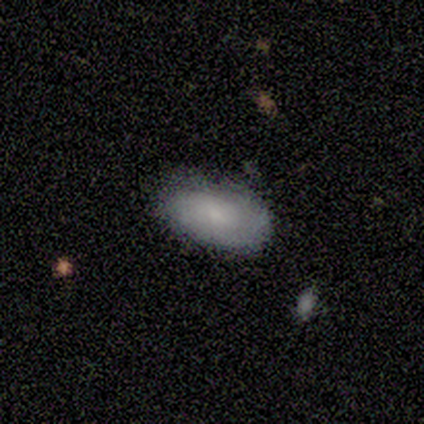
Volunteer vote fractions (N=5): Q: Smooth or featured?
A: smooth (60%); runner-up: featured or disk (20%)
Q: How rounded?
A: in between (100%)
Q: Merging?
A: none (75%); runner-up: minor disturbance (25%)